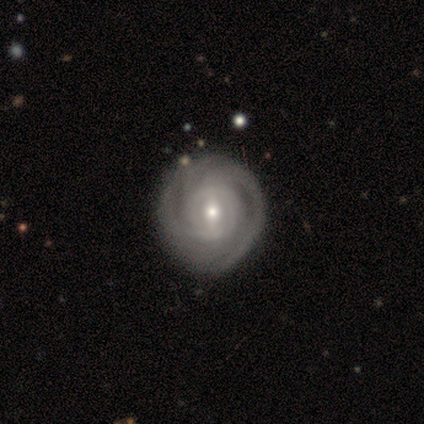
Smooth or featured: featured or disk — 80% (star or artifact — 20%)
Edge-on disk: no — 100%
Bar: weak — 75% (strong — 25%)
Spiral arms: yes — 100%
Spiral winding: tight — 75% (medium — 25%)
Spiral arm count: 2 — 50% (3 — 25%)
Bulge size: moderate — 50% (tied with small — 50%)
Merging: none — 75% (minor disturbance — 25%)